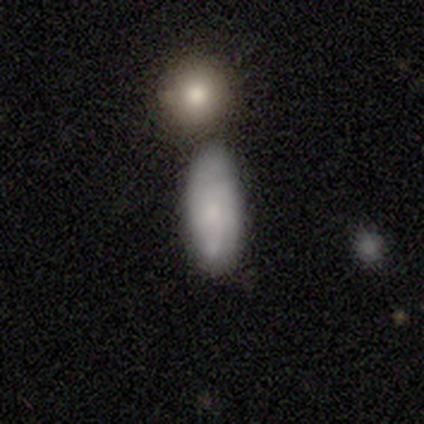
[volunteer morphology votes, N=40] Smooth or featured? 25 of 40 (62%) said smooth. How rounded? 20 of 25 (80%) said in between. Merging? 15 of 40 (38%) said none.